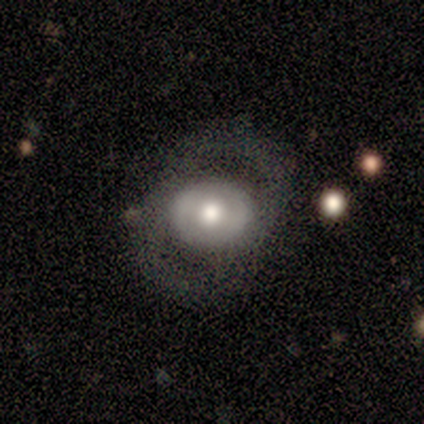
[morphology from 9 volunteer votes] A smooth galaxy with no disk features (67%) that is round (50%, tied with in between). Merging: none (67%).